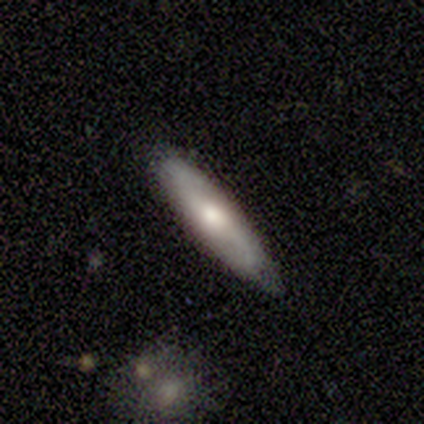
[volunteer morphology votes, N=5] A featured or disk galaxy (80%) viewed edge-on (75%) with a rounded central bulge (100%). Merging: none (60%).